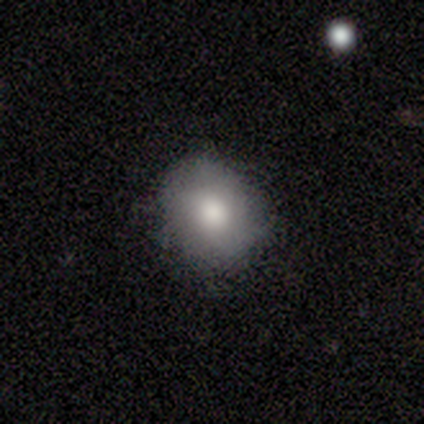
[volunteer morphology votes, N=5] Smooth or featured?
  - smooth: 80% *
  - featured or disk: 20%
  - star or artifact: 0%
How rounded?
  - round: 50% * (tied)
  - in between: 50% * (tied)
  - cigar-shaped: 0%
Merging?
  - none: 80% *
  - minor disturbance: 20%
  - major disturbance: 0%
  - merger: 0%